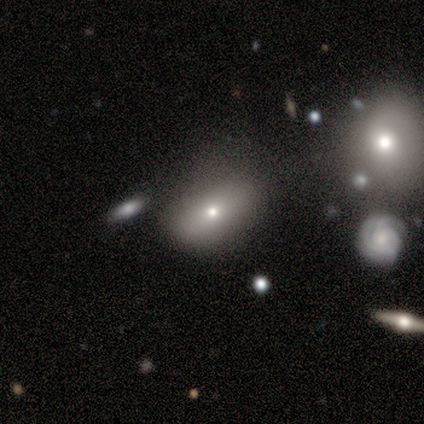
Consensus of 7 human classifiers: Morphology: type=smooth (57%); roundness=in between (100%); merging=none (50%).